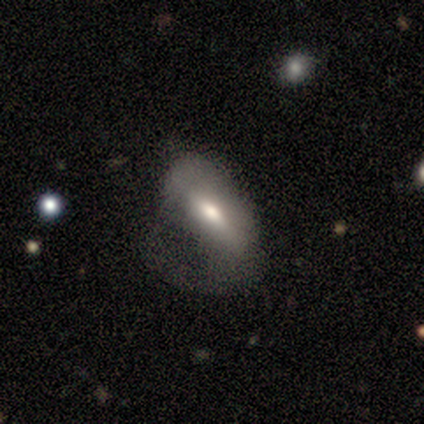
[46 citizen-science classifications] Smooth or featured? featured or disk (54%)
Edge-on disk? no (92%)
Bar? strong (43%)
Spiral arms? yes (57%)
Spiral winding? medium (46%)
Spiral arm count? 1 (54%)
Bulge size? moderate (83%)
Merging? major disturbance (61%)